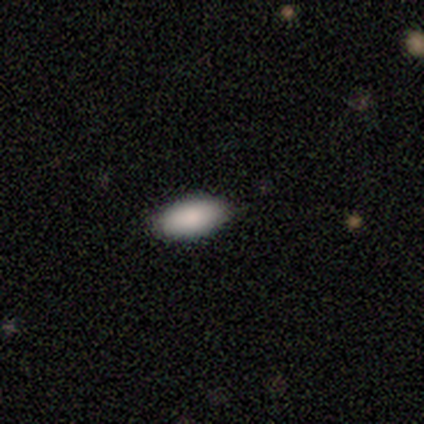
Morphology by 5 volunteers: Smooth or featured? smooth (100%)
How rounded? in between (100%)
Merging? none (80%)